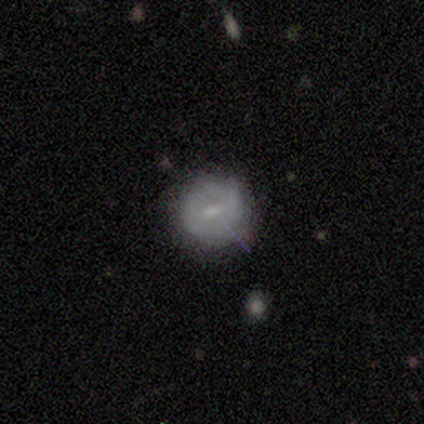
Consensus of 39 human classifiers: Morphology: type=featured or disk (56%); edge-on=no (95%); bar=weak (52%); spiral arms=no (57%); bulge=small (81%); merging=none (79%).